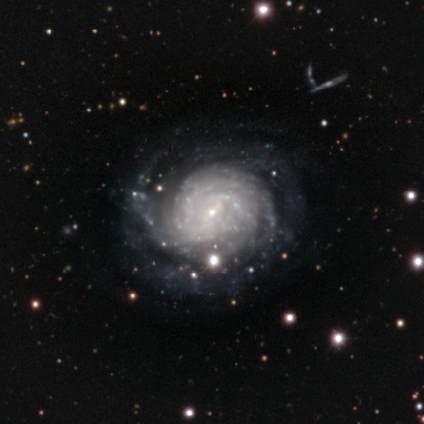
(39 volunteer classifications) This is clearly a featured or disk galaxy (92%). It is clearly not viewed edge-on (100%). Bar: possibly no (53%). Spiral arm pattern: clearly yes (100%). Spiral arm count: marginally can't tell (36%). Spiral winding: likely tight (78%). Central bulge: clearly small (83%). Merging: likely none (63%).